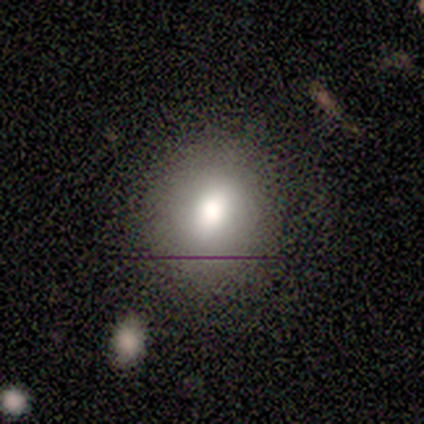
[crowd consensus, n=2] This appears to be a smooth galaxy with no disk features (50%, tied with featured or disk) that is in between round and cigar-shaped (100%). Merging: none (50%, tied with minor disturbance).